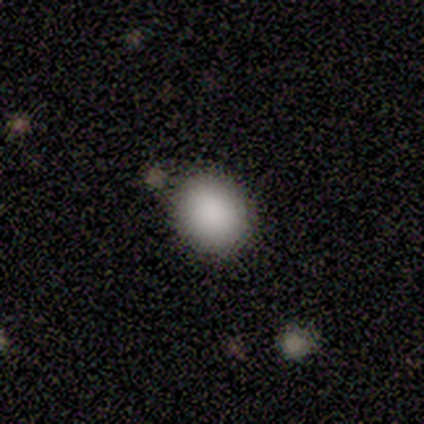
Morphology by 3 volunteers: Volunteers were most divided on "how rounded": round: 67%, in between: 33%, cigar-shaped: 0%. More confident: smooth or featured — smooth (100%); merging — none (100%).